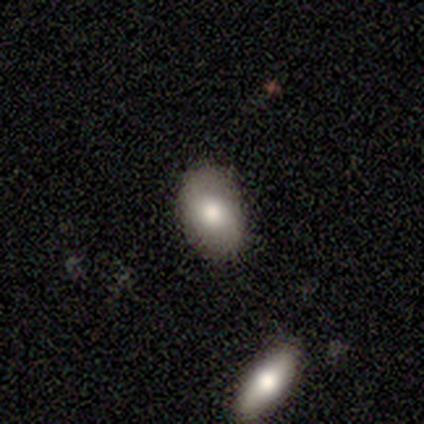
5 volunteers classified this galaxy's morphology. smooth 100%, featured or disk 0%, star or artifact 0%. Down the decision tree: how rounded — in between (80%); merging — none (80%).